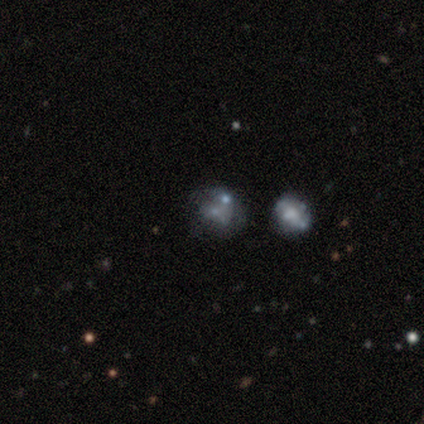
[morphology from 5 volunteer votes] Q: Smooth or featured?
A: featured or disk (60%); runner-up: smooth (20%)
Q: Edge-on disk?
A: no (100%)
Q: Bar?
A: no (100%)
Q: Spiral arms?
A: no (100%)
Q: Bulge size?
A: moderate (33%); tied with: small (33%); none (33%)
Q: Merging?
A: merger (75%); runner-up: minor disturbance (25%)